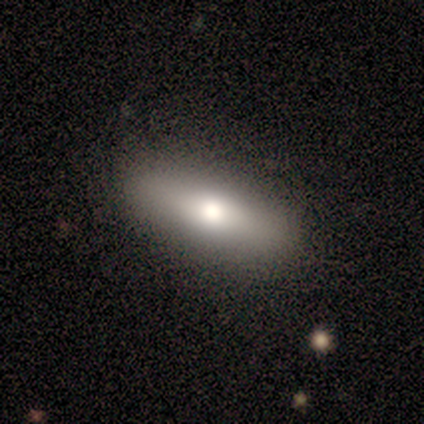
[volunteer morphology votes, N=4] Overall: smooth (50%, tied with featured or disk). How rounded: in between (50%, tied with cigar-shaped). Merging: none (100%).